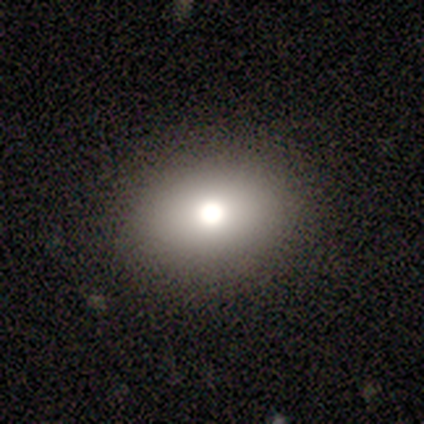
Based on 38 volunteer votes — Smooth or featured: smooth — 74% (featured or disk — 13%)
How rounded: in between — 68% (round — 32%)
Merging: none — 85% (minor disturbance — 6%)